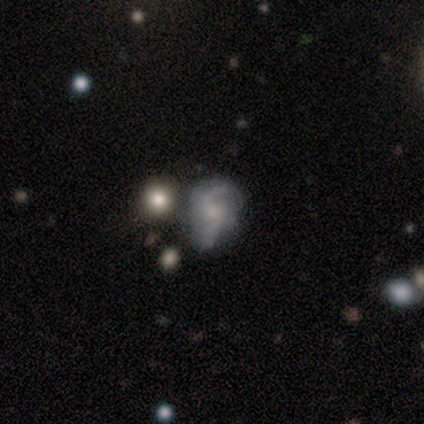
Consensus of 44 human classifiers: Morphology: type=featured or disk (77%); edge-on=no (97%); bar=no (82%); spiral arms=yes (88%); winding=loose (48%); arm count=2 (72%); bulge=small (64%); merging=none (46%).